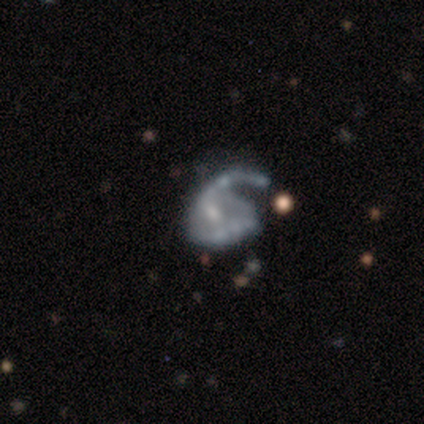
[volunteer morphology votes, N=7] smooth-or-featured: featured or disk: 100% | smooth: 0% | star or artifact: 0%
  disk-edge-on: no: 100% | yes: 0%
    bar: no: 71% | weak: 29% | strong: 0%
    has-spiral-arms: yes: 86% | no: 14%
      spiral-winding: medium: 50% | loose: 33% | tight: 17%
      spiral-arm-count: 1: 50% | can't tell: 33% | 2: 17% | 3: 0% | 4: 0% | more than 4: 0%
    bulge-size: moderate: 43% (tied) | small: 43% (tied) | none: 14% | dominant: 0% | large: 0%
  merging: none: 43% (tied) | major disturbance: 43% (tied) | merger: 14% | minor disturbance: 0%